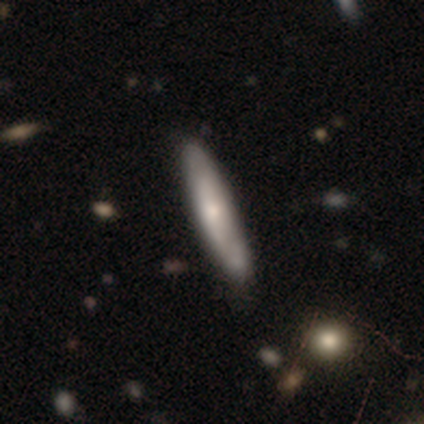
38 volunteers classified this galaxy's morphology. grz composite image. It shows a smooth galaxy with no disk features (68%) that is cigar-shaped (73%). Merging: none (46%).